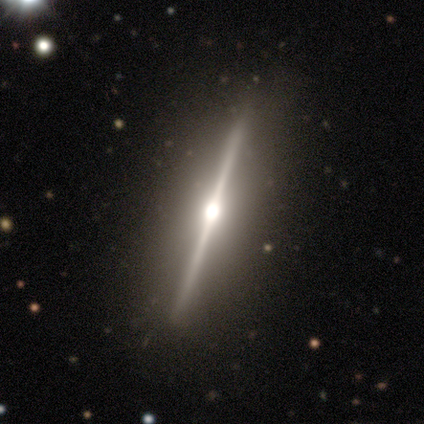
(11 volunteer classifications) Smooth or featured? 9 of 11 (82%) said featured or disk. Edge-on disk? 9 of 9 (100%) said yes. Edge-on bulge? 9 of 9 (100%) said rounded. Merging? 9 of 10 (90%) said none.